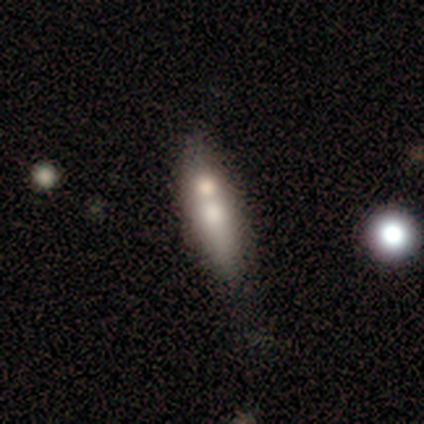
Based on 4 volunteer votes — Smooth or featured? 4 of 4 (100%) said smooth. How rounded? 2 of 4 (50%, tied with cigar-shaped) said in between. Merging? 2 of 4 (50%) said merger.